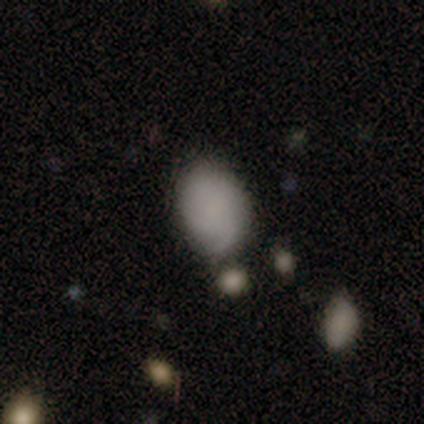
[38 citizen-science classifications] Smooth or featured? 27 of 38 (71%) said smooth. How rounded? 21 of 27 (78%) said in between. Merging? 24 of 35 (69%) said none.